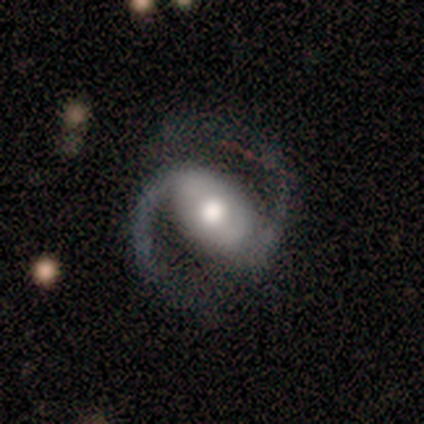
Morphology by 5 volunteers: A featured or disk galaxy (100%) with a strong bar (50%), 2 (100%) medium (100%) spiral arms (100%) and a moderate central bulge (75%).

Vote fractions:
- Smooth or featured? featured or disk: 100% / smooth: 0% / star or artifact: 0%
- Edge-on disk? no: 80% / yes: 20%
- Bar? strong: 50% / weak: 25% / no: 25%
- Spiral arms? yes: 100% / no: 0%
- Spiral winding? medium: 100% / tight: 0% / loose: 0%
- Spiral arm count? 2: 100% / 1: 0% / 3: 0% / 4: 0% / more than 4: 0% / can't tell: 0%
- Bulge size? moderate: 75% / large: 25% / dominant: 0% / small: 0% / none: 0%
- Merging? none: 80% / minor disturbance: 20% / major disturbance: 0% / merger: 0%